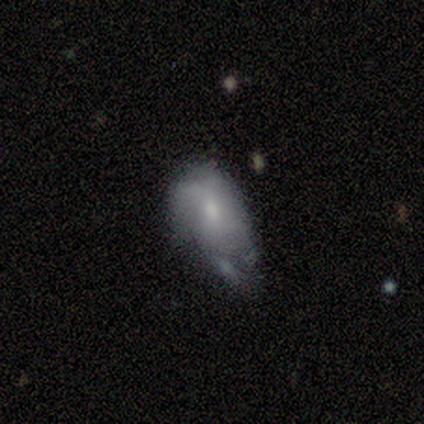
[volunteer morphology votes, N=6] A smooth galaxy with no disk features (67%) that is in between round and cigar-shaped (75%). Merging: none (33%, tied with major disturbance).